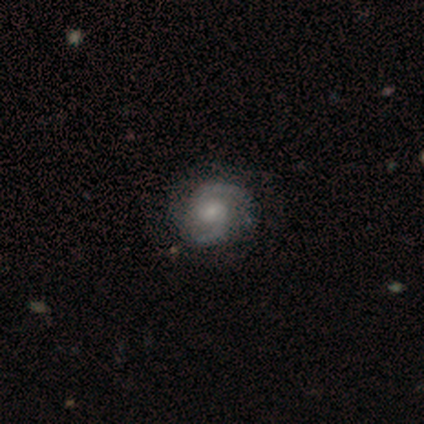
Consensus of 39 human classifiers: Q: Smooth or featured?
A: featured or disk (82%); runner-up: star or artifact (13%)
Q: Edge-on disk?
A: no (100%)
Q: Bar?
A: no (53%); runner-up: weak (47%)
Q: Spiral arms?
A: yes (97%); runner-up: no (3%)
Q: Spiral winding?
A: medium (55%); runner-up: tight (29%)
Q: Spiral arm count?
A: 2 (94%); runner-up: 4 (3%)
Q: Bulge size?
A: small (62%); runner-up: moderate (34%)
Q: Merging?
A: none (82%); runner-up: minor disturbance (15%)